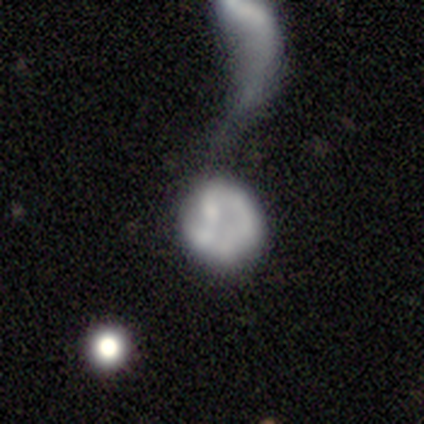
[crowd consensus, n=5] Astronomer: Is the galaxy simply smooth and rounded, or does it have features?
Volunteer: featured or disk — 60% (runner-up: smooth, 40%).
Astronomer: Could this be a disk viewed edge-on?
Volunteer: no — 100%.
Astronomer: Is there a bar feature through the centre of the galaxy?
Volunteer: no — 67%.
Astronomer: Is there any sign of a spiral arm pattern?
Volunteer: no — 67%.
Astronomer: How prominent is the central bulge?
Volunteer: none — 67%.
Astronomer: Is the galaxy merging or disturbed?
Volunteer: merger — 60%.